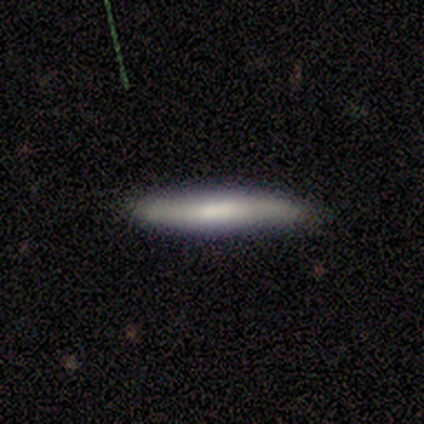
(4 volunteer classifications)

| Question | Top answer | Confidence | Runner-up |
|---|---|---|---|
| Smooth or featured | smooth | 50% | tied: featured or disk (50%) |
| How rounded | cigar-shaped | 100% | — |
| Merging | none | 100% | — |